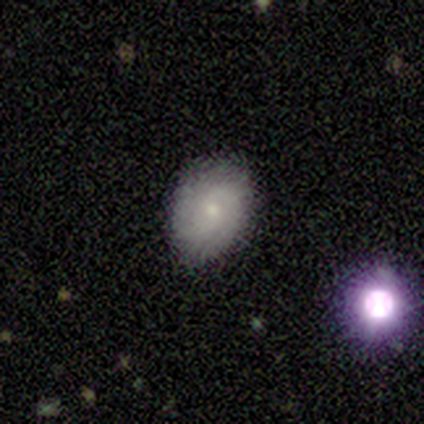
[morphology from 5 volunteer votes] Smooth or featured: featured or disk — 100%
Edge-on disk: no — 100%
Bar: no — 100%
Spiral arms: yes — 80% (no — 20%)
Spiral winding: medium — 75% (tight — 25%)
Spiral arm count: 2 — 75% (can't tell — 25%)
Bulge size: small — 100%
Merging: none — 80% (minor disturbance — 20%)